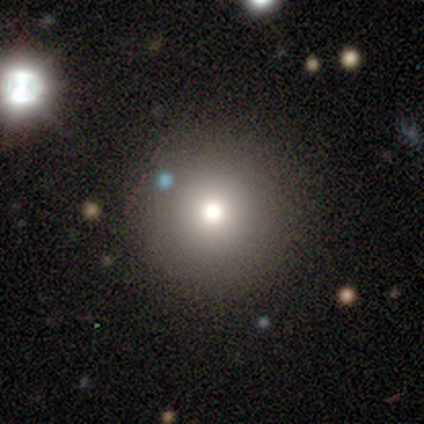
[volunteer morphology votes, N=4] Smooth or featured?
  - smooth: 75% *
  - star or artifact: 25%
  - featured or disk: 0%
How rounded?
  - round: 67% *
  - cigar-shaped: 33%
  - in between: 0%
Merging?
  - none: 100% *
  - minor disturbance: 0%
  - major disturbance: 0%
  - merger: 0%